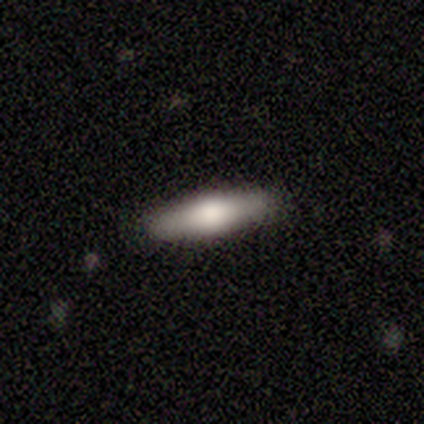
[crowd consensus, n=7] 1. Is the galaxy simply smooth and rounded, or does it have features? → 86% smooth, 14% featured or disk, 0% star or artifact.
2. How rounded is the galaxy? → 83% cigar-shaped, 17% in between, 0% round.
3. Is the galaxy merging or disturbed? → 100% none, 0% minor disturbance, 0% major disturbance, 0% merger.